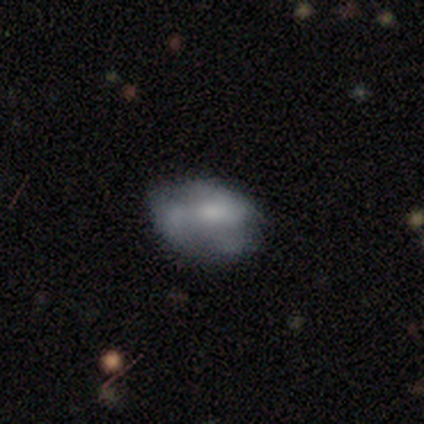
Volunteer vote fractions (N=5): Q: Smooth or featured?
A: featured or disk (60%); runner-up: smooth (20%)
Q: Edge-on disk?
A: no (100%)
Q: Bar?
A: no (67%); runner-up: weak (33%)
Q: Spiral arms?
A: no (67%); runner-up: yes (33%)
Q: Bulge size?
A: large (33%); tied with: moderate (33%); small (33%)
Q: Merging?
A: none (50%); tied with: minor disturbance (50%)